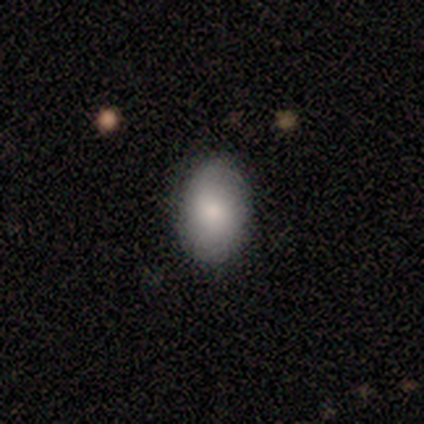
smooth-or-featured: smooth: 100% | featured or disk: 0% | star or artifact: 0%
  how-rounded: in between: 100% | round: 0% | cigar-shaped: 0%
  merging: none: 100% | minor disturbance: 0% | major disturbance: 0% | merger: 0%